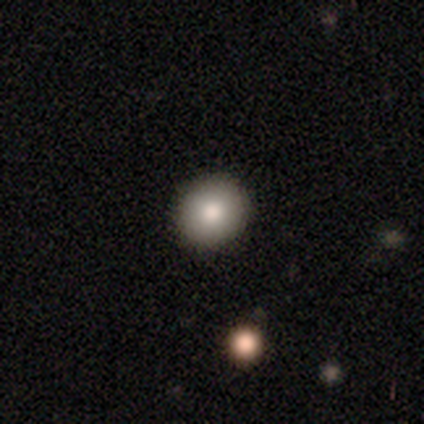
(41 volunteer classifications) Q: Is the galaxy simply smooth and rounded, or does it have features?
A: smooth — 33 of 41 (80%).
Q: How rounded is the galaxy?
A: round — 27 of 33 (82%).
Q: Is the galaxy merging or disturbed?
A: none — 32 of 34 (94%).